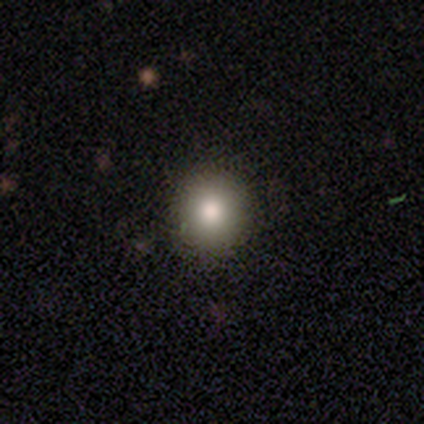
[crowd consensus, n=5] smooth 60%, featured or disk 20%, star or artifact 20%. Down the decision tree: how rounded — round (67%); merging — none (75%).